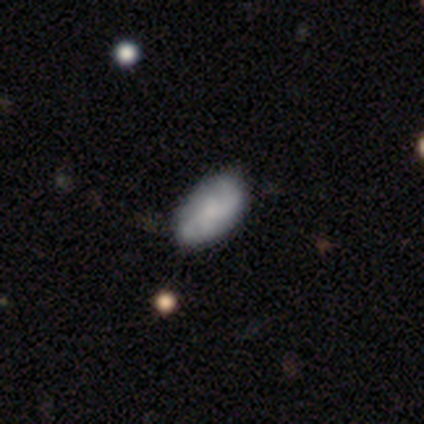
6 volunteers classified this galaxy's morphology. Smooth or featured?
  - featured or disk: 83% *
  - star or artifact: 17%
  - smooth: 0%
Edge-on disk?
  - no: 100% *
  - yes: 0%
Bar?
  - no: 100% *
  - strong: 0%
  - weak: 0%
Spiral arms?
  - yes: 80% *
  - no: 20%
Spiral winding?
  - tight: 50% * (tied)
  - medium: 50% * (tied)
  - loose: 0%
Spiral arm count?
  - 2: 50% * (tied)
  - can't tell: 50% * (tied)
  - 1: 0%
  - 3: 0%
  - 4: 0%
  - more than 4: 0%
Bulge size?
  - none: 60% *
  - moderate: 20%
  - small: 20%
  - dominant: 0%
  - large: 0%
Merging?
  - none: 60% *
  - minor disturbance: 40%
  - major disturbance: 0%
  - merger: 0%